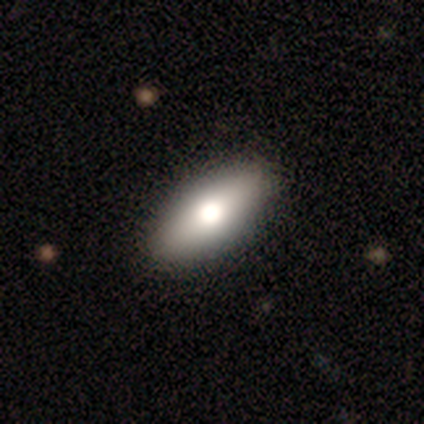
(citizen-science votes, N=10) smooth_or_featured: smooth (p=0.60) [alt: featured or disk p=0.30]
how_rounded: in between (p=1.00)
merging: none (p=1.00)